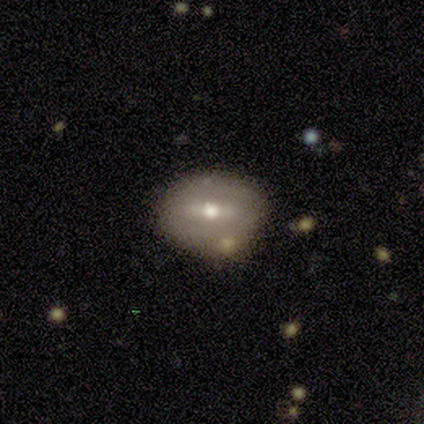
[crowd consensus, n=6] Volunteers were most divided on "bar" (2-way tie): weak: 50%, no: 50%, strong: 0%; "bulge size" (2-way tie): moderate: 50%, small: 50%, dominant: 0%, large: 0%, none: 0%. More confident: spiral arms — no (100%); merging — none (100%); edge-on disk — no (67%); smooth or featured — featured or disk (50%).